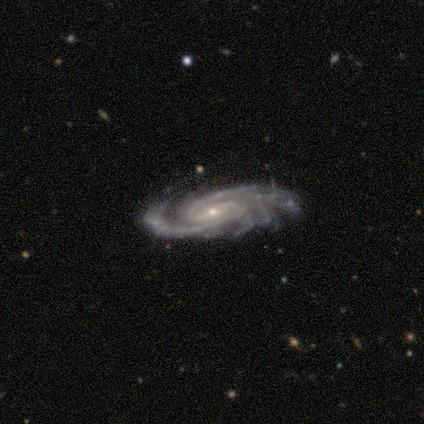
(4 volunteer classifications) This appears to be a featured or disk galaxy (100%) with no bar (100%), 3 (50%) tight (75%) spiral arms (100%) and a small central bulge (75%). Merging: none (75%).